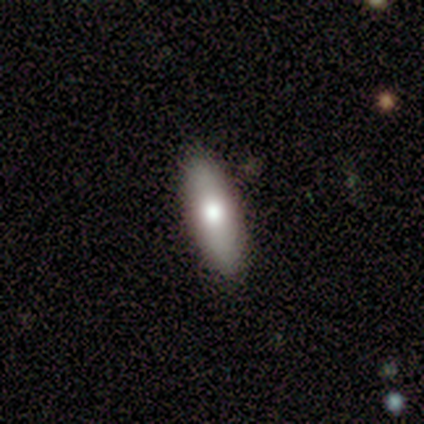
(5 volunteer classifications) A featured or disk galaxy (60%) with no bar (100%), no spiral arms (100%) and a moderate central bulge (100%). Merging: none (100%).